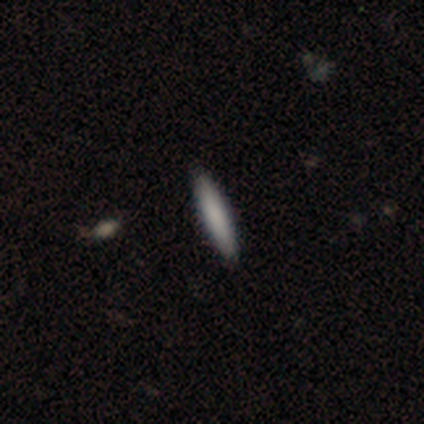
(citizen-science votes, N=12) This is clearly a smooth galaxy (92%). How rounded: clearly cigar-shaped (91%). Merging: clearly none (91%).